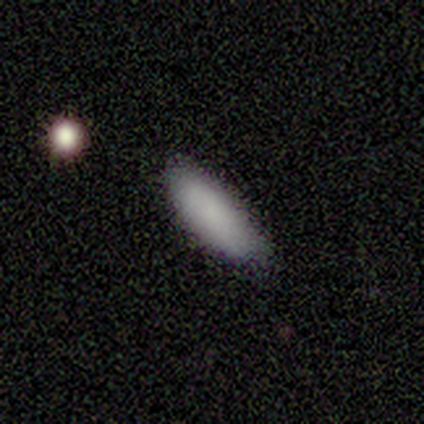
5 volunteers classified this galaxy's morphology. Smooth or featured? smooth (80%)
How rounded? in between (100%)
Merging? none (80%)